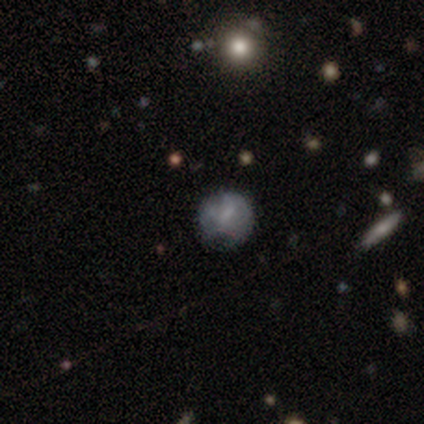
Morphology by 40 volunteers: Volunteers were most divided on "merging": none: 44%, minor disturbance: 38%, major disturbance: 15%, merger: 3%. More confident: how rounded — round (100%); smooth or featured — smooth (50%).